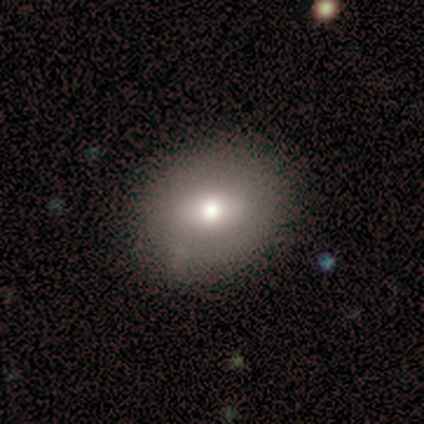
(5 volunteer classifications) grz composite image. It shows a smooth galaxy with no disk features (60%) that is round (67%). Merging: none (60%).